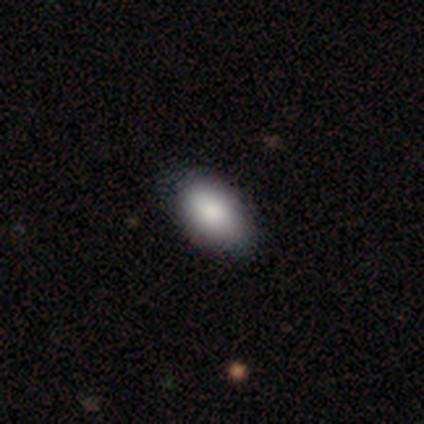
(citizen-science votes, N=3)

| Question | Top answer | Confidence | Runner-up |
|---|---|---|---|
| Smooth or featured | smooth | 100% | — |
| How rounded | in between | 100% | — |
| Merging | none | 100% | — |